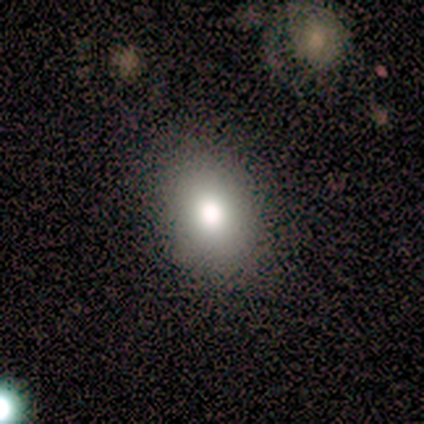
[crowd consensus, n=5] A smooth galaxy with no disk features (60%) that is in between round and cigar-shaped (67%).

Vote fractions:
- Smooth or featured? smooth: 60% / star or artifact: 40% / featured or disk: 0%
- How rounded? in between: 67% / round: 33% / cigar-shaped: 0%
- Merging? none: 100% / minor disturbance: 0% / major disturbance: 0% / merger: 0%